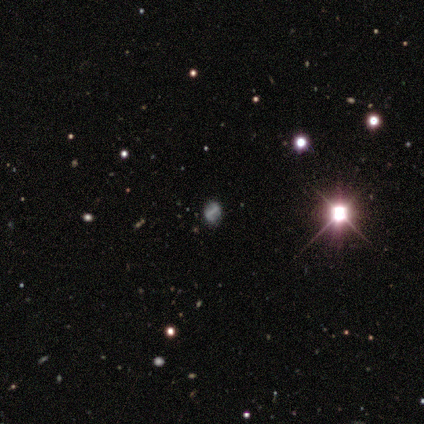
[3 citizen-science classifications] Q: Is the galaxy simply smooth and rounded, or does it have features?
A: star or artifact — 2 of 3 (67%).